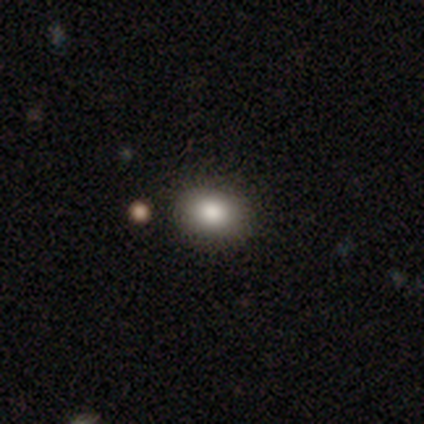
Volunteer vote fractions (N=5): Overall: smooth (80%). How rounded: in between (100%). Merging: none (100%).